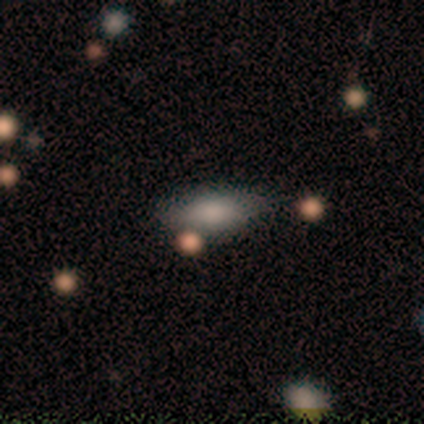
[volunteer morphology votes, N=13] This is likely a smooth galaxy (77%). How rounded: likely in between (60%). Merging: likely none (69%).